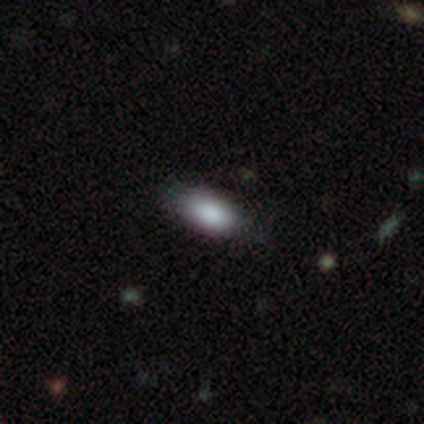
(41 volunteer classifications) Smooth or featured? 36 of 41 (88%) said smooth. How rounded? 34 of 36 (94%) said in between. Merging? 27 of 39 (69%) said none.